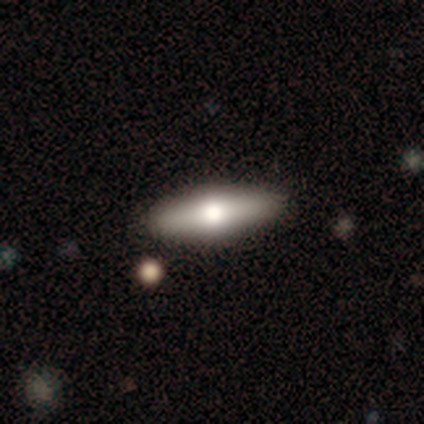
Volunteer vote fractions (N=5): smooth-or-featured: smooth: 60% | featured or disk: 20% | star or artifact: 20%
  how-rounded: cigar-shaped: 67% | in between: 33% | round: 0%
  merging: none: 100% | minor disturbance: 0% | major disturbance: 0% | merger: 0%